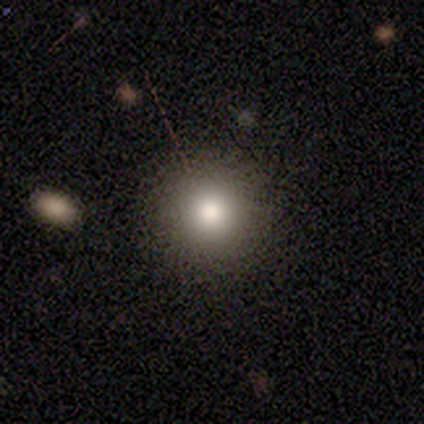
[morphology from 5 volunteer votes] This appears to be a smooth galaxy with no disk features (80%) that is round (100%). Merging: none (100%).